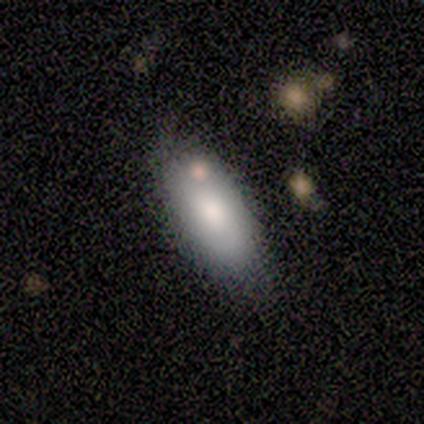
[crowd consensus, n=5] Smooth or featured?
  - smooth: 100% *
  - featured or disk: 0%
  - star or artifact: 0%
How rounded?
  - in between: 80% *
  - cigar-shaped: 20%
  - round: 0%
Merging?
  - none: 60% *
  - minor disturbance: 20%
  - merger: 20%
  - major disturbance: 0%